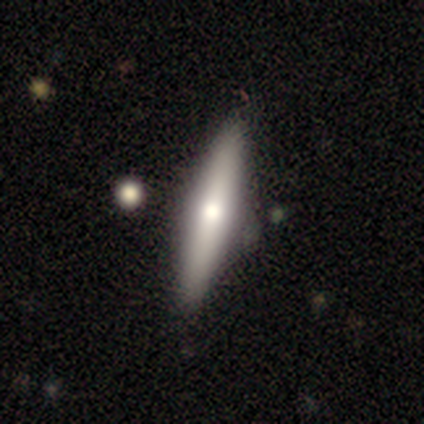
A featured or disk galaxy (56%) viewed edge-on (100%) with a rounded central bulge (100%). Merging: none (89%).